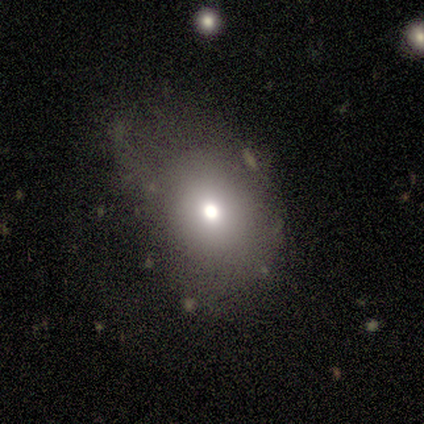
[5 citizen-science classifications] Overall: smooth (60%; featured or disk 40%). How rounded: round (67%; in between 33%). Merging: none (40%, tied with minor disturbance).